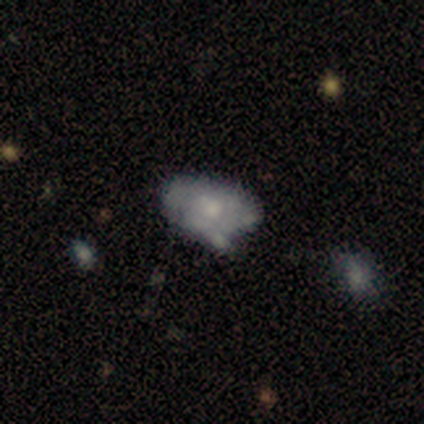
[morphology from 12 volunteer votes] smooth_or_featured: smooth (p=0.50) [tied with: featured or disk p=0.50]
how_rounded: in between (p=1.00)
merging: none (p=0.50) [tied with: minor disturbance p=0.50]